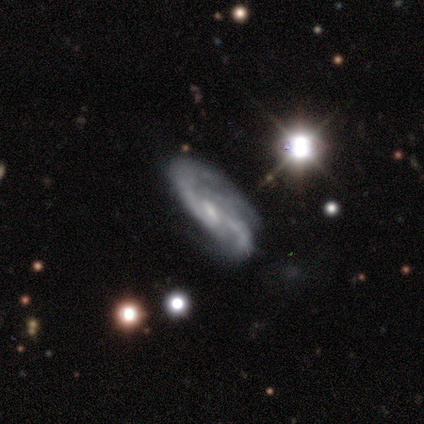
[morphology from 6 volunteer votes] This is clearly a featured or disk galaxy (100%). It is clearly not viewed edge-on (83%). Bar: likely no (60%). Spiral arm pattern: clearly yes (100%). Spiral arm count: marginally 2 (40%, tied with can't tell). Spiral winding: likely medium (60%). Central bulge: marginally moderate (40%, tied with small). Merging: likely none (67%).